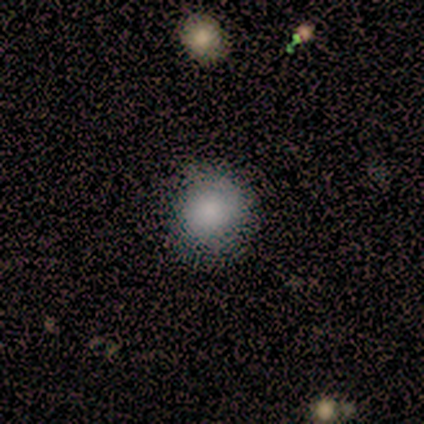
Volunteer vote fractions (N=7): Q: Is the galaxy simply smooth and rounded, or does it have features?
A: smooth — 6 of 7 (86%).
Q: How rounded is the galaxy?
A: round — 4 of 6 (67%).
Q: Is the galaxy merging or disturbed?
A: none — 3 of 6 (50%).